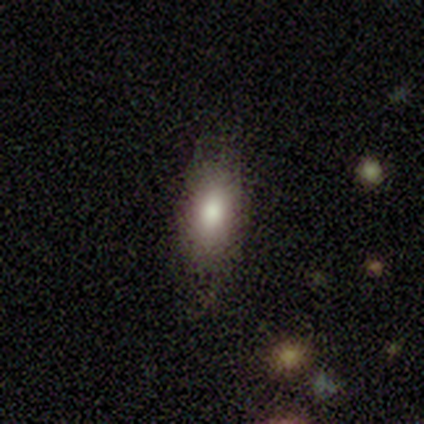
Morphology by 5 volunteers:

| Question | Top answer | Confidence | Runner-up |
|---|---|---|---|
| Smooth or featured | smooth | 60% | featured or disk (40%) |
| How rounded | in between | 100% | — |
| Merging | none | 80% | minor disturbance (20%) |